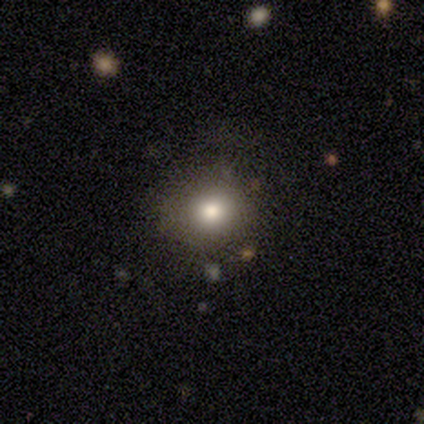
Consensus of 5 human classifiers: Overall: smooth (80%). How rounded: round (100%). Merging: none (75%).